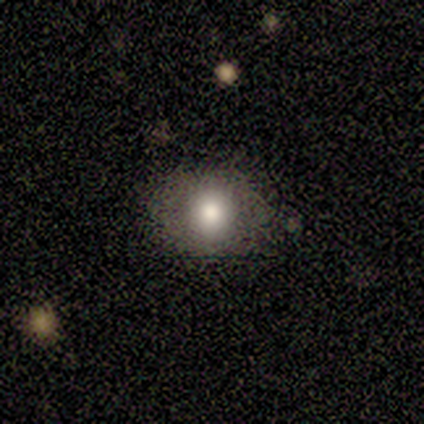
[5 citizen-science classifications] A smooth galaxy with no disk features (60%) that is round (100%). Merging: none (50%, tied with minor disturbance).